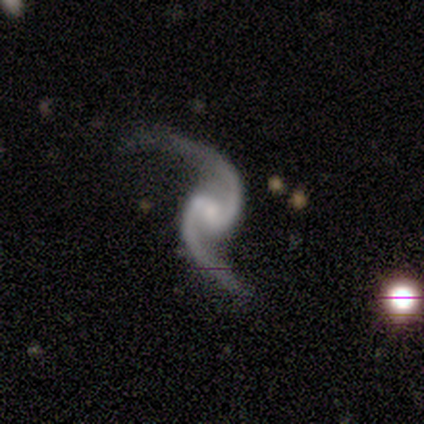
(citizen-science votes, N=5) Smooth or featured? featured or disk (100%)
Edge-on disk? no (100%)
Bar? weak (60%)
Spiral arms? yes (100%)
Spiral winding? loose (60%)
Spiral arm count? 2 (100%)
Bulge size? small (80%)
Merging? none (60%)